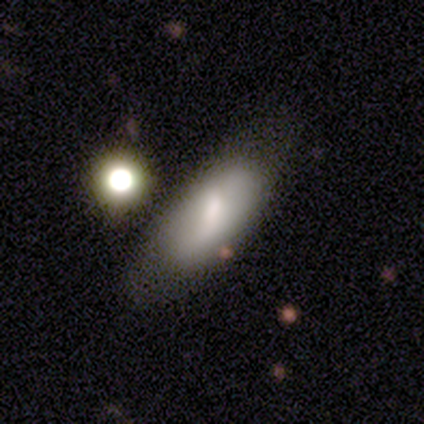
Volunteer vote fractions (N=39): Morphology: type=smooth (62%); roundness=in between (92%); merging=none (63%).